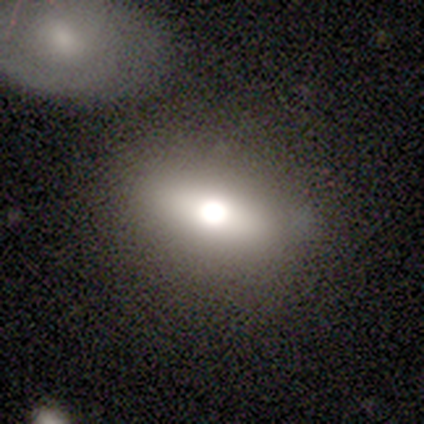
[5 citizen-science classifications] This appears to be a smooth galaxy with no disk features (40%, tied with featured or disk) that is round (50%, tied with in between). Merging: none (100%).